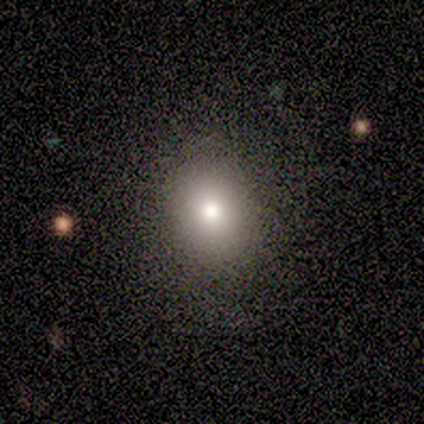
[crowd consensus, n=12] Smooth or featured? smooth (83%)
How rounded? round (60%)
Merging? none (91%)